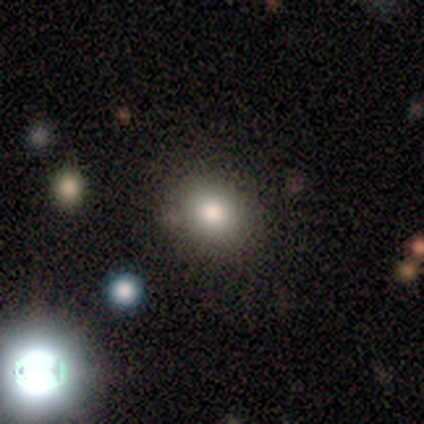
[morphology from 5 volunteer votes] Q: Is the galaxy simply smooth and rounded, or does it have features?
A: smooth — 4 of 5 (80%).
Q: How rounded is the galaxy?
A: round — 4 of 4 (100%).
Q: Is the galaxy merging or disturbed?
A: none — 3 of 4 (75%).